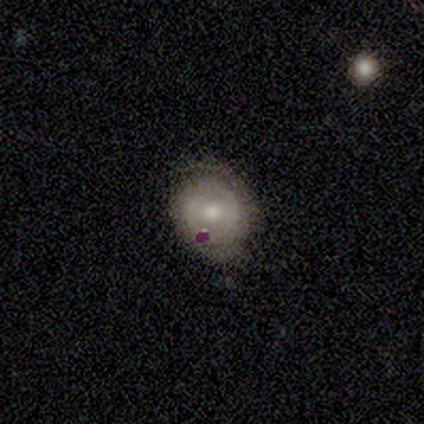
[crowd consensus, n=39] smooth_or_featured: featured or disk (p=0.69) [alt: smooth p=0.26]
disk_edge_on: no (p=0.93) [alt: yes p=0.07]
bar: no (p=0.68) [alt: weak p=0.28]
has_spiral_arms: yes (p=0.88) [alt: no p=0.12]
spiral_winding: tight (p=0.91) [alt: medium p=0.09]
spiral_arm_count: can't tell (p=0.41) [alt: 2 p=0.32]
bulge_size: moderate (p=0.76) [alt: small p=0.20]
merging: none (p=0.78) [alt: minor disturbance p=0.16]